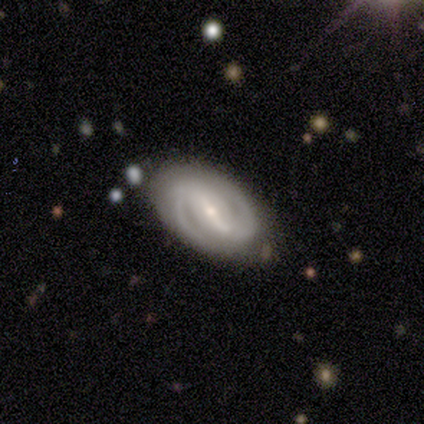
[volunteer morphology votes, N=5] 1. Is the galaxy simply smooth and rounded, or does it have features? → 100% featured or disk, 0% smooth, 0% star or artifact.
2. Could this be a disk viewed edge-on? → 100% no, 0% yes.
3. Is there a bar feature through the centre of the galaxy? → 80% strong, 20% weak, 0% no.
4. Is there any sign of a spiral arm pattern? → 100% yes, 0% no.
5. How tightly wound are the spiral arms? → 60% medium, 40% tight, 0% loose.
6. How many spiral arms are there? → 100% 2, 0% 1, 0% 3, 0% 4, 0% more than 4, 0% can't tell.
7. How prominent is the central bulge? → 80% small, 20% moderate, 0% dominant, 0% large, 0% none.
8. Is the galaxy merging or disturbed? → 80% none, 20% minor disturbance, 0% major disturbance, 0% merger.